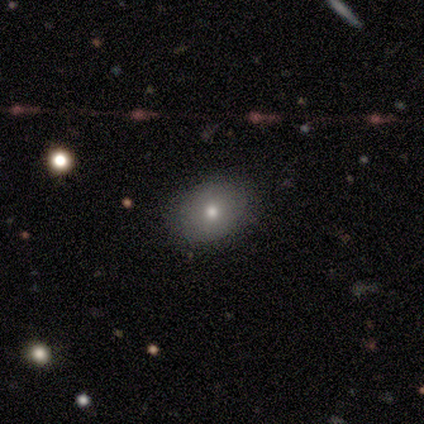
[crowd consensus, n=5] smooth 60%, featured or disk 40%, star or artifact 0%. Down the decision tree: how rounded — in between (100%); merging — none (100%).